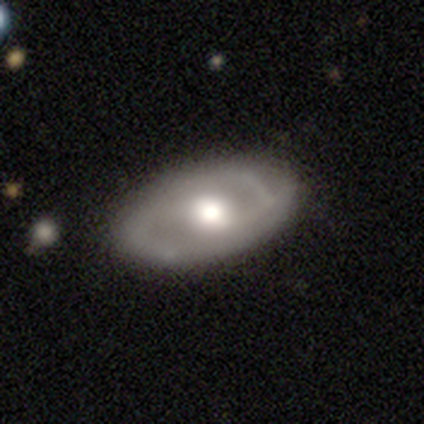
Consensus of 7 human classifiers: This appears to be a featured or disk galaxy (71%) with no bar (60%), no spiral arms (80%) and a moderate central bulge (80%). Merging: none (86%).